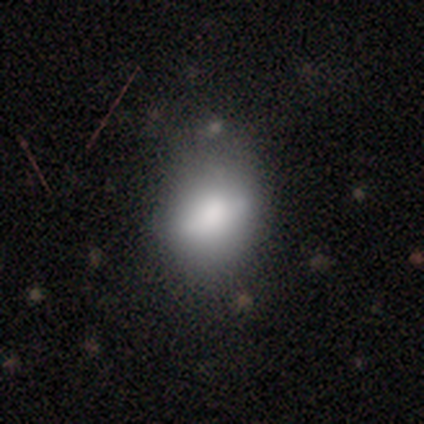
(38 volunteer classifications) smooth-or-featured: smooth: 71% | featured or disk: 24% | star or artifact: 5%
  how-rounded: in between: 67% | round: 26% | cigar-shaped: 7%
  merging: none: 72% | minor disturbance: 25% | major disturbance: 3% | merger: 0%